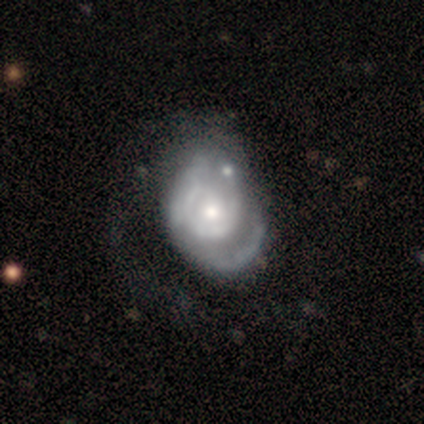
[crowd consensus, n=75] Q: Smooth or featured?
A: featured or disk (83%); runner-up: smooth (15%)
Q: Edge-on disk?
A: no (97%); runner-up: yes (3%)
Q: Bar?
A: no (92%); runner-up: weak (8%)
Q: Spiral arms?
A: yes (77%); runner-up: no (23%)
Q: Spiral winding?
A: tight (59%); runner-up: medium (24%)
Q: Spiral arm count?
A: can't tell (46%); runner-up: 1 (24%)
Q: Bulge size?
A: moderate (57%); runner-up: small (35%)
Q: Merging?
A: major disturbance (25%); runner-up: minor disturbance (15%)